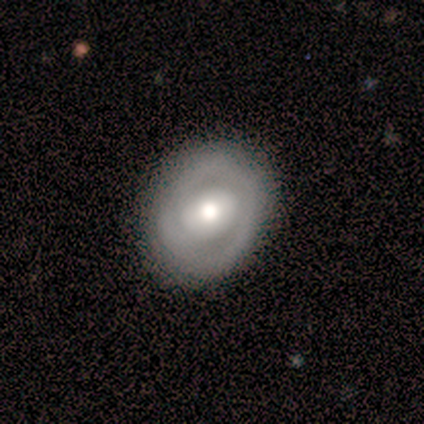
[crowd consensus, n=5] smooth 60%, featured or disk 40%, star or artifact 0%. Down the decision tree: how rounded — round (67%); merging — none (80%).